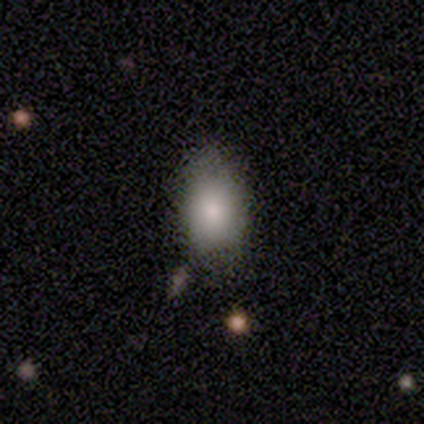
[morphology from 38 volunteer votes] smooth_or_featured: smooth (p=0.92) [alt: featured or disk p=0.05]
how_rounded: in between (p=0.83) [alt: round p=0.17]
merging: none (p=0.73) [alt: minor disturbance p=0.19]